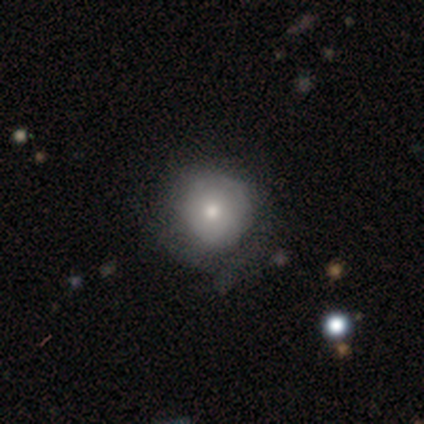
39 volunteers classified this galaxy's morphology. Smooth or featured: smooth — 69% (featured or disk — 26%)
How rounded: round — 100%
Merging: none — 70% (minor disturbance — 22%)